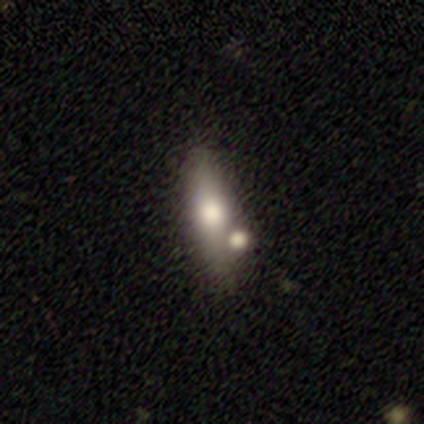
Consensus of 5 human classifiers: This appears to be a featured or disk galaxy (80%) viewed edge-on (100%) with a rounded central bulge (100%). Merging: none (80%).